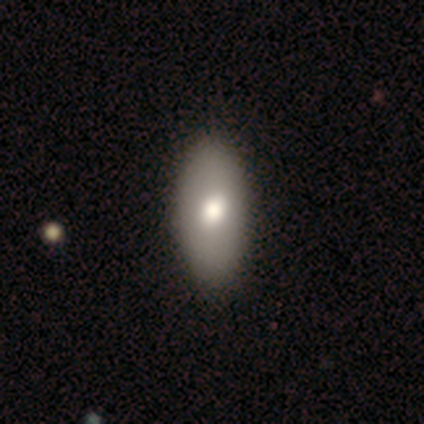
Overall: smooth (100%). How rounded: in between (100%). Merging: none (100%).